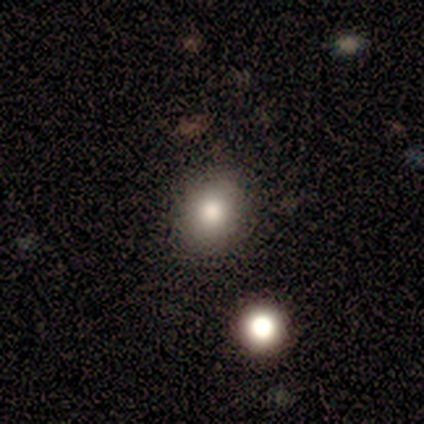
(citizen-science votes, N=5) This appears to be a smooth galaxy with no disk features (100%) that is in between round and cigar-shaped (60%). Merging: none (100%).